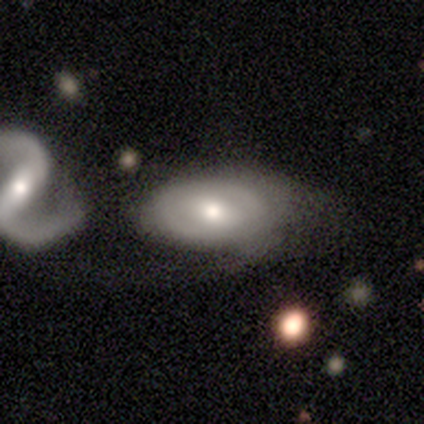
This is clearly a featured or disk galaxy (80%). It is clearly not viewed edge-on (100%). Bar: possibly no (50%). Spiral arm pattern: possibly yes (50%, tied with no). Spiral arm count: clearly 2 (100%). Spiral winding: possibly tight (50%, tied with loose). Central bulge: possibly moderate (50%, tied with small). Merging: marginally minor disturbance (40%, tied with merger).